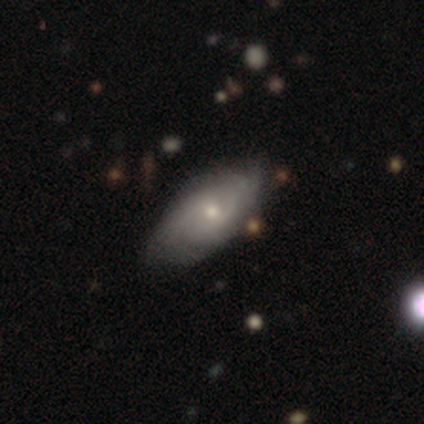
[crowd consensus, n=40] Smooth or featured? 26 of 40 (65%) said featured or disk. Edge-on disk? 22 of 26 (85%) said no. Bar? 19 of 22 (86%) said no. Spiral arms? 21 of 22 (95%) said yes. Spiral winding? 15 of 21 (71%) said tight. Spiral arm count? 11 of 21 (52%) said can't tell. Bulge size? 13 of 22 (59%) said small. Merging? 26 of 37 (70%) said none.